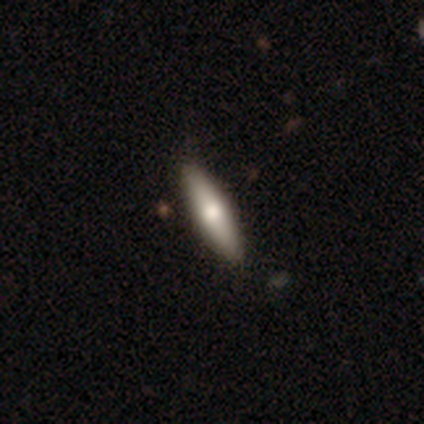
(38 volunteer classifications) smooth 68%, featured or disk 32%, star or artifact 0%. Down the decision tree: how rounded — cigar-shaped (85%); merging — none (55%).